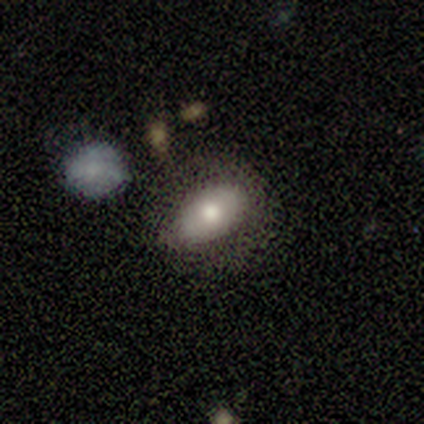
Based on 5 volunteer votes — This appears to be a smooth galaxy with no disk features (60%) that is in between round and cigar-shaped (67%). Merging: none (33%, tied with minor disturbance and merger).